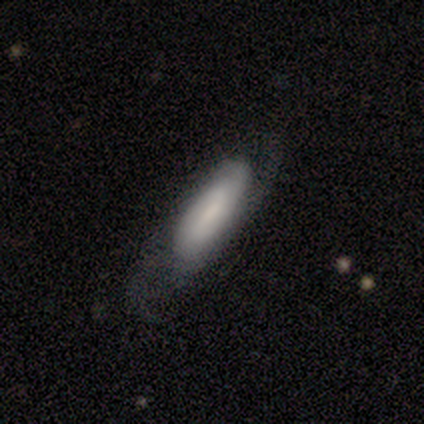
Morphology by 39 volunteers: A featured or disk galaxy (56%) with a weak bar (56%), 2 (71%) medium (50%) spiral arms (88%) and a small central bulge (56%).

Vote fractions:
- Smooth or featured? featured or disk: 56% / smooth: 44% / star or artifact: 0%
- Edge-on disk? no: 73% / yes: 27%
- Bar? weak: 56% / no: 31% / strong: 12%
- Spiral arms? yes: 88% / no: 12%
- Spiral winding? medium: 50% / tight: 29% / loose: 21%
- Spiral arm count? 2: 71% / can't tell: 14% / 3: 7% / 4: 7% / 1: 0% / more than 4: 0%
- Bulge size? small: 56% / moderate: 25% / none: 12% / dominant: 6% / large: 0%
- Merging? none: 62% / minor disturbance: 28% / major disturbance: 10% / merger: 0%